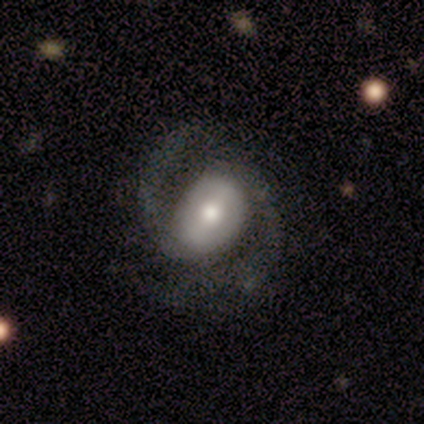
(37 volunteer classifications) Morphology: type=featured or disk (73%); edge-on=no (96%); bar=weak (65%); spiral arms=yes (96%); winding=loose (44%); arm count=2 (100%); bulge=moderate (81%); merging=none (74%).